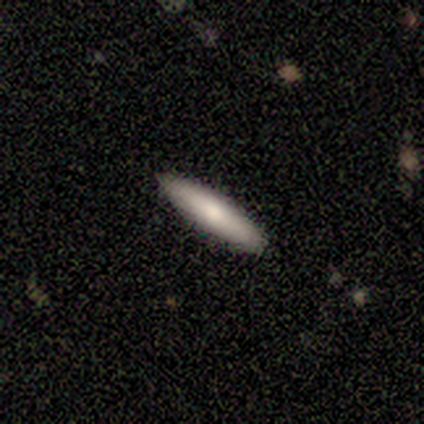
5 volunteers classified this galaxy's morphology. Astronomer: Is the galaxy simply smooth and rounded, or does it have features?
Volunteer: smooth — 80%.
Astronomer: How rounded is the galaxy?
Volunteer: in between — 50%, tied with cigar-shaped at 50%.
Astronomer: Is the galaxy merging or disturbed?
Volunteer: none — 100%.